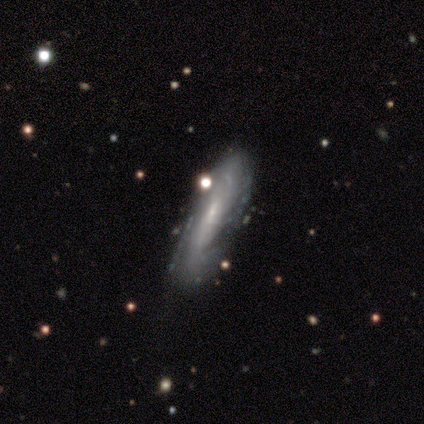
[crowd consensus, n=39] Smooth or featured? featured or disk (79%)
Edge-on disk? no (74%)
Bar? no (57%)
Spiral arms? yes (74%)
Spiral winding? tight (47%)
Spiral arm count? can't tell (65%)
Bulge size? small (87%)
Merging? none (59%)